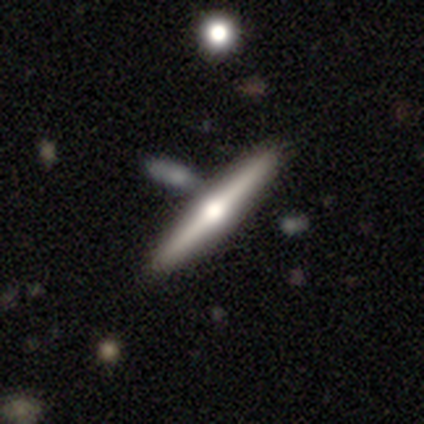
Q: Smooth or featured?
A: featured or disk (100%)
Q: Edge-on disk?
A: yes (100%)
Q: Edge-on bulge?
A: rounded (100%)
Q: Merging?
A: none (100%)